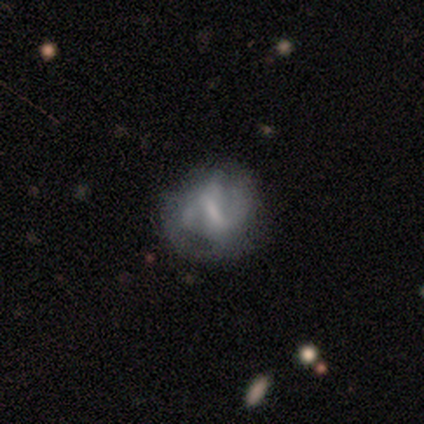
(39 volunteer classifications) Smooth or featured? 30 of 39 (77%) said featured or disk. Edge-on disk? 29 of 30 (97%) said no. Bar? 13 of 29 (45%) said weak. Spiral arms? 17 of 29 (59%) said yes. Spiral winding? 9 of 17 (53%) said medium. Spiral arm count? 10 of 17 (59%) said 2. Bulge size? 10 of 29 (34%) said none. Merging? 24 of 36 (67%) said none.